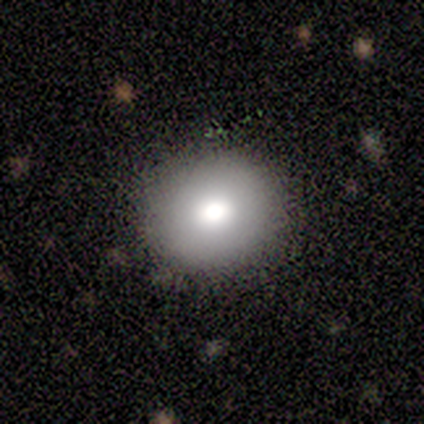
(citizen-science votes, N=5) A smooth galaxy with no disk features (80%) that is round (100%).

Vote fractions:
- Smooth or featured? smooth: 80% / featured or disk: 20% / star or artifact: 0%
- How rounded? round: 100% / in between: 0% / cigar-shaped: 0%
- Merging? none: 100% / minor disturbance: 0% / major disturbance: 0% / merger: 0%